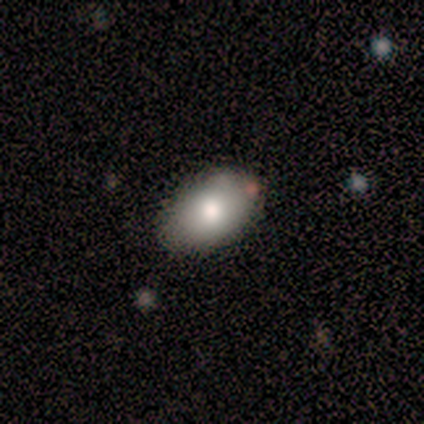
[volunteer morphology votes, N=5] This appears to be a smooth galaxy with no disk features (100%) that is in between round and cigar-shaped (100%). Merging: none (80%).